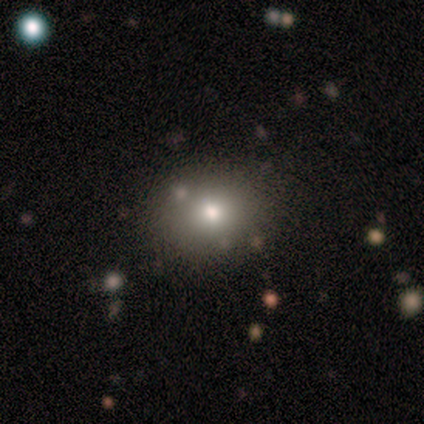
smooth-or-featured: smooth: 60% | star or artifact: 40% | featured or disk: 0%
  how-rounded: in between: 67% | round: 33% | cigar-shaped: 0%
  merging: none: 67% | major disturbance: 33% | minor disturbance: 0% | merger: 0%